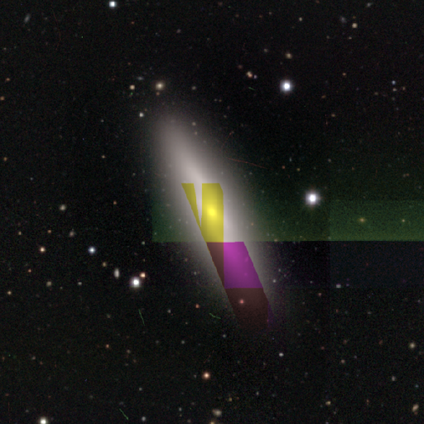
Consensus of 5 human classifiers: Q: Smooth or featured?
A: smooth (60%); runner-up: featured or disk (20%)
Q: How rounded?
A: cigar-shaped (100%)
Q: Merging?
A: none (75%); runner-up: minor disturbance (25%)